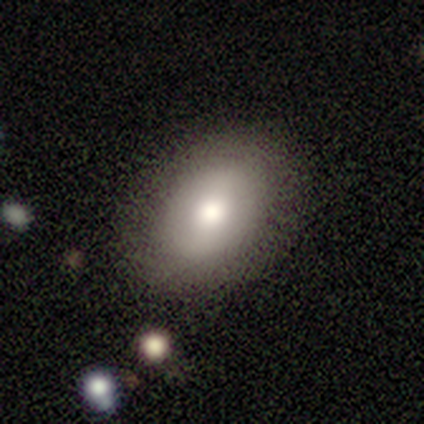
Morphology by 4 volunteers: A smooth galaxy with no disk features (100%) that is in between round and cigar-shaped (100%).

Vote fractions:
- Smooth or featured? smooth: 100% / featured or disk: 0% / star or artifact: 0%
- How rounded? in between: 100% / round: 0% / cigar-shaped: 0%
- Merging? none: 75% / minor disturbance: 25% / major disturbance: 0% / merger: 0%